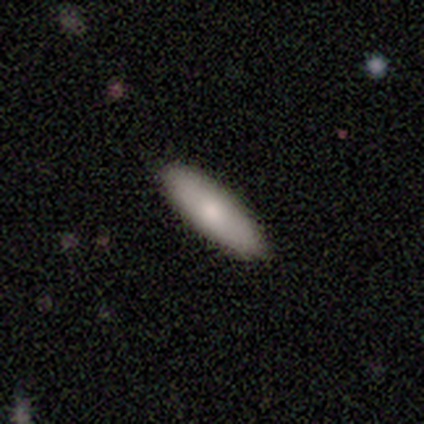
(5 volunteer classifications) A smooth galaxy with no disk features (100%) that is cigar-shaped (60%).

Vote fractions:
- Smooth or featured? smooth: 100% / featured or disk: 0% / star or artifact: 0%
- How rounded? cigar-shaped: 60% / in between: 40% / round: 0%
- Merging? none: 100% / minor disturbance: 0% / major disturbance: 0% / merger: 0%